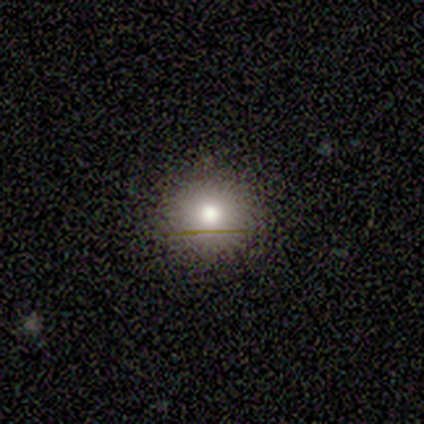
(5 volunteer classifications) A smooth galaxy with no disk features (60%) that is round (100%). Merging: none (60%).